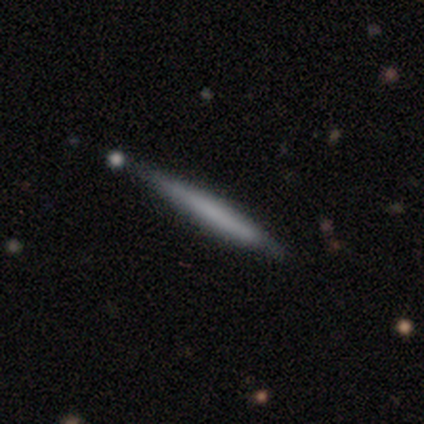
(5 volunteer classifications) Smooth or featured?
  - smooth: 60% *
  - featured or disk: 40%
  - star or artifact: 0%
How rounded?
  - cigar-shaped: 100% *
  - round: 0%
  - in between: 0%
Merging?
  - none: 60% *
  - minor disturbance: 40%
  - major disturbance: 0%
  - merger: 0%